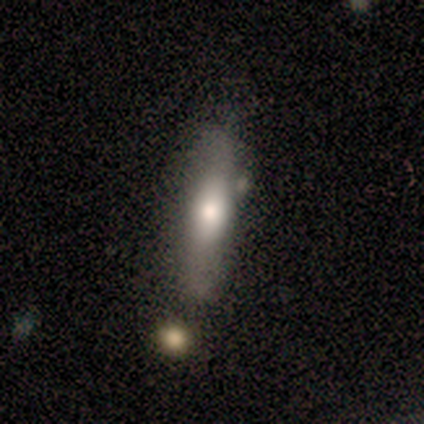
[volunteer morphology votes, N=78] Volunteers were most divided on "merging": none: 35%, merger: 15%, minor disturbance: 11%, major disturbance: 1%. More confident: how rounded — cigar-shaped (61%); smooth or featured — smooth (56%).